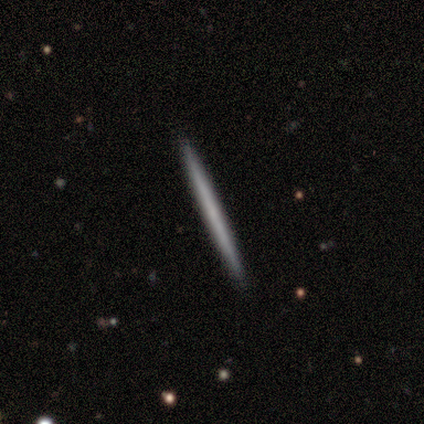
Volunteers were most divided on "smooth or featured": smooth: 60%, featured or disk: 40%, star or artifact: 0%. More confident: how rounded — cigar-shaped (100%); merging — none (100%).